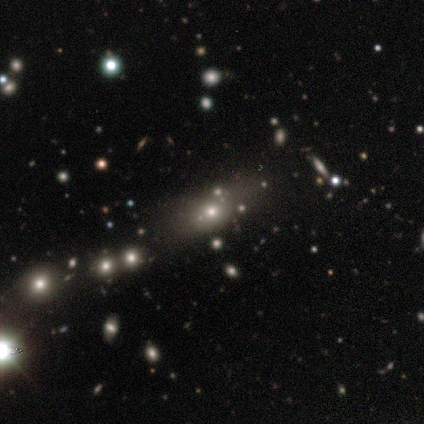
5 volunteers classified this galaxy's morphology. This is likely a smooth galaxy (60%). How rounded: marginally round (33%, tied with in between and cigar-shaped). Merging: clearly none (100%).